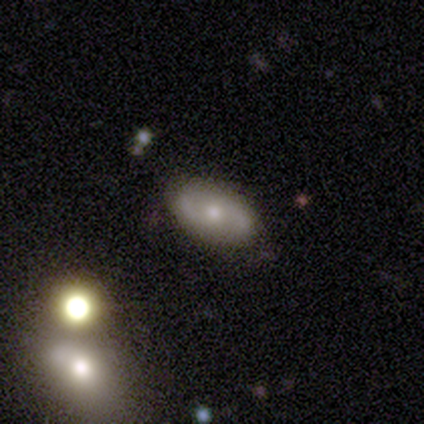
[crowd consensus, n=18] Volunteers were most divided on "spiral winding" (2-way tie): medium: 50%, loose: 50%, tight: 0%. More confident: edge-on disk — no (100%); merging — none (94%); spiral arm count — 2 (83%); smooth or featured — featured or disk (61%); spiral arms — yes (55%); bar — no (55%); bulge size — moderate (55%).